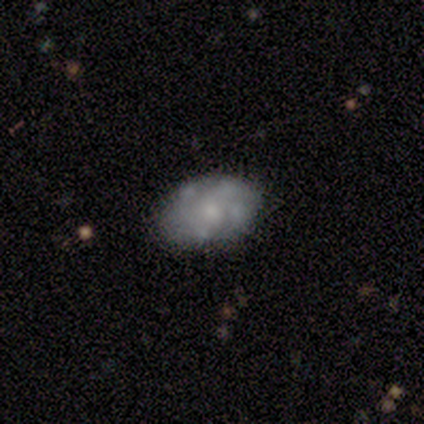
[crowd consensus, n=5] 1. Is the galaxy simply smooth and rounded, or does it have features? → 40% smooth (tied), 40% featured or disk (tied), 20% star or artifact.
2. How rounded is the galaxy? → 100% in between, 0% round, 0% cigar-shaped.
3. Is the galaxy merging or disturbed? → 50% none, 25% minor disturbance, 25% major disturbance, 0% merger.